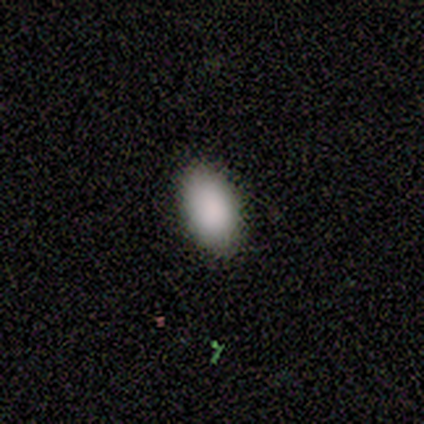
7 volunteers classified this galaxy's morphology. Smooth or featured? 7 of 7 (100%) said smooth. How rounded? 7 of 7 (100%) said in between. Merging? 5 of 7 (71%) said none.